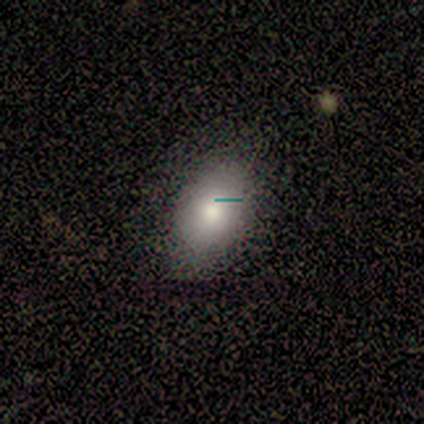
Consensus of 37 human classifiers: Smooth or featured? smooth (73%)
How rounded? in between (81%)
Merging? none (91%)